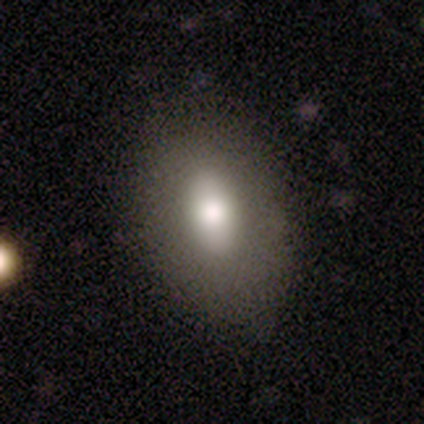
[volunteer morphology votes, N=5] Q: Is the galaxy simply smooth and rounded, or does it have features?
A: smooth — 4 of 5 (80%).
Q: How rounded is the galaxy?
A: in between — 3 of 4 (75%).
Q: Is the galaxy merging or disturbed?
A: none — 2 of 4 (50%, tied with minor disturbance).